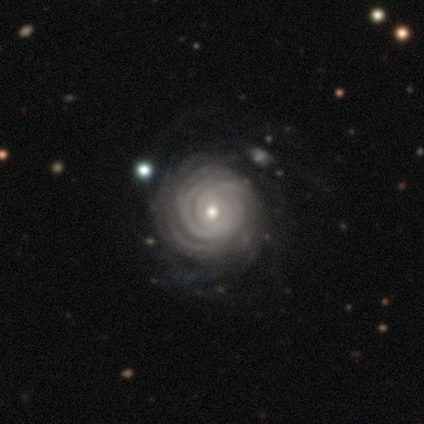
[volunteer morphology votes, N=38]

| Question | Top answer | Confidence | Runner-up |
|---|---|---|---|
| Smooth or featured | featured or disk | 100% | — |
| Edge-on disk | no | 100% | — |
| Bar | no | 82% | weak (13%) |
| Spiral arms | yes | 100% | — |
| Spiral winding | tight | 97% | medium (3%) |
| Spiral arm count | more than 4 | 39% | can't tell (37%) |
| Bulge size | moderate | 55% | small (39%) |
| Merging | none | 47% | minor disturbance (11%) |